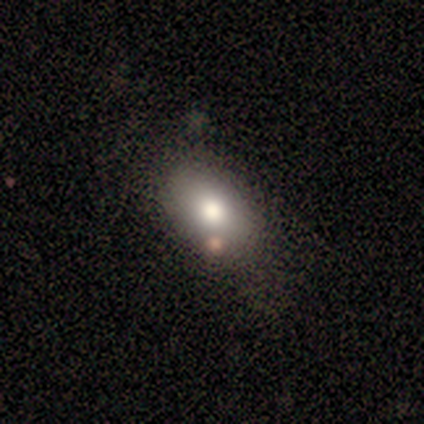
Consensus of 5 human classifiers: A smooth galaxy with no disk features (80%) that is in between round and cigar-shaped (75%).

Vote fractions:
- Smooth or featured? smooth: 80% / featured or disk: 20% / star or artifact: 0%
- How rounded? in between: 75% / round: 25% / cigar-shaped: 0%
- Merging? none: 100% / minor disturbance: 0% / major disturbance: 0% / merger: 0%